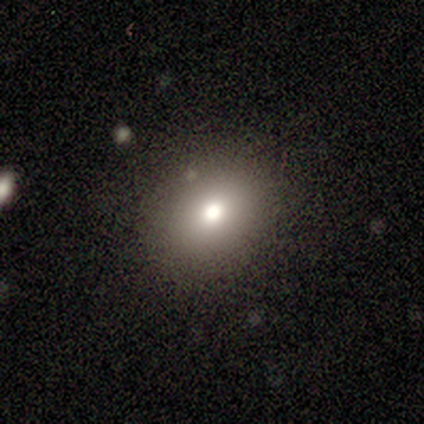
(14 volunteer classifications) A smooth galaxy with no disk features (86%) that is in between round and cigar-shaped (58%). Merging: none (93%).